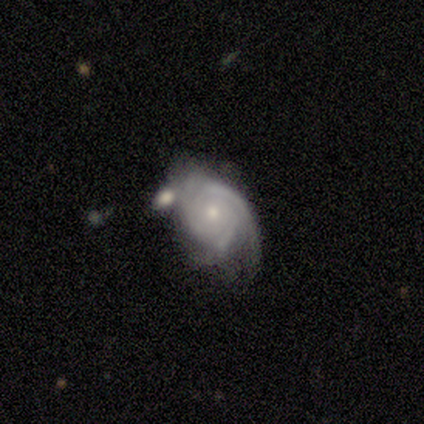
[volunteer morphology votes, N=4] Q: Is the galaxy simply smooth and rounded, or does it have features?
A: featured or disk — 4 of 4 (100%).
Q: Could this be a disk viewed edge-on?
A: no — 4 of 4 (100%).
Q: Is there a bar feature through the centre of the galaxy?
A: no — 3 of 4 (75%).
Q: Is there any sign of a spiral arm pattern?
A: yes — 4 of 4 (100%).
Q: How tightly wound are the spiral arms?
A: tight — 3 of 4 (75%).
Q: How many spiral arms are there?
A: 3 — 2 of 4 (50%).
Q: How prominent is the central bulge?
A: moderate — 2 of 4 (50%, tied with small).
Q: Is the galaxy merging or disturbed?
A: minor disturbance — 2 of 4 (50%).